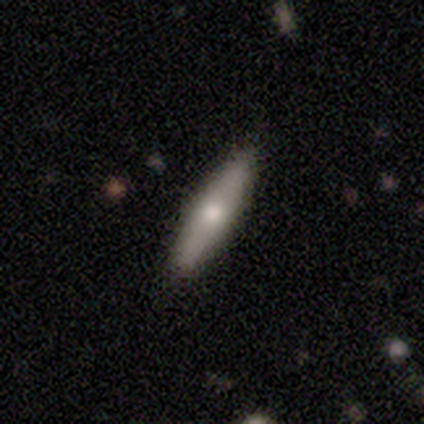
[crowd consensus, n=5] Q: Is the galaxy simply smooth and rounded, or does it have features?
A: smooth — 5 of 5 (100%).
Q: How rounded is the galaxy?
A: cigar-shaped — 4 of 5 (80%).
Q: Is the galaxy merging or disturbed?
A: none — 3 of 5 (60%).